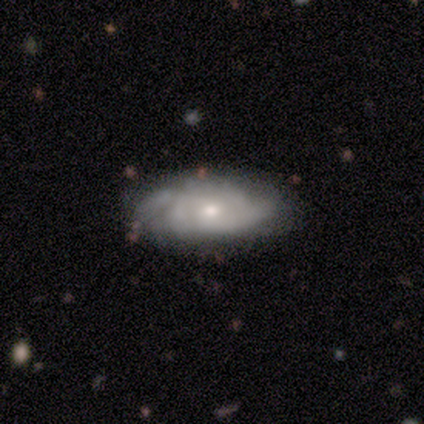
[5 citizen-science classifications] Overall: featured or disk (60%; smooth 20%). Edge-on disk: no (100%). Bar: no (67%; strong 33%). Spiral arms: yes (67%; no 33%). Spiral arm count: 2 (50%, tied with can't tell). Spiral winding: tight (100%). Bulge size: moderate (67%; dominant 33%). Merging: none (75%).